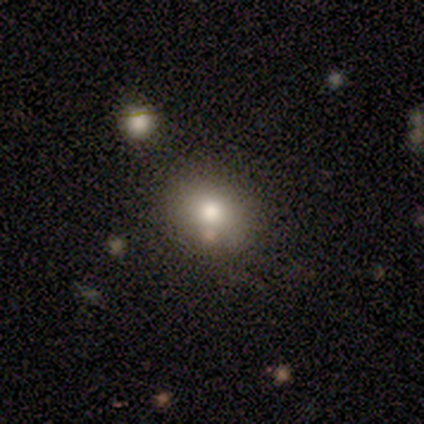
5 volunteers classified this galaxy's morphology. smooth 80%, featured or disk 20%, star or artifact 0%. Down the decision tree: how rounded — round (75%); merging — none (80%).